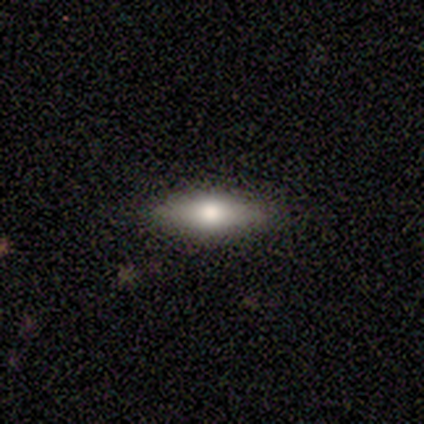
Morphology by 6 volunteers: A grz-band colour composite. It shows a smooth galaxy with no disk features (50%, tied with featured or disk) that is in between round and cigar-shaped (67%). Merging: none (100%).